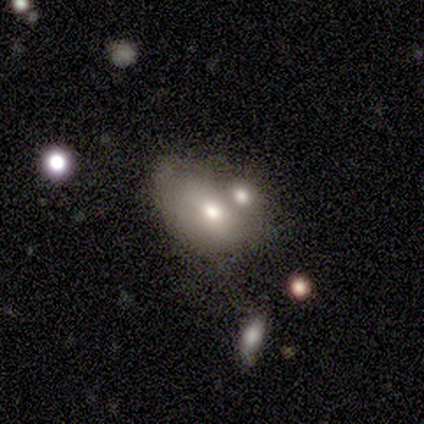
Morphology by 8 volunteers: smooth-or-featured: smooth: 50% (tied) | featured or disk: 50% (tied) | star or artifact: 0%
  how-rounded: in between: 75% | round: 25% | cigar-shaped: 0%
  merging: minor disturbance: 50% | merger: 25% | none: 12% | major disturbance: 12%